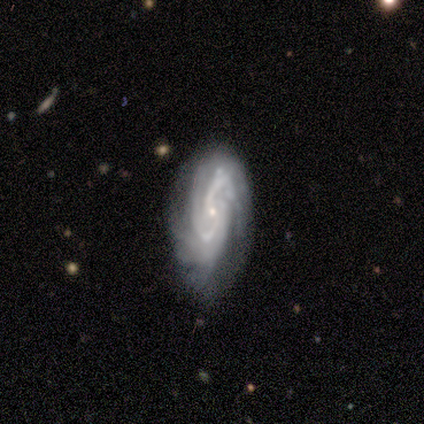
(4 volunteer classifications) This appears to be a featured or disk galaxy (100%) with a weak bar (50%, tied with no), 3 (75%) tight (50%, tied with medium) spiral arms (100%) and a small central bulge (75%). Merging: none (50%, tied with major disturbance).